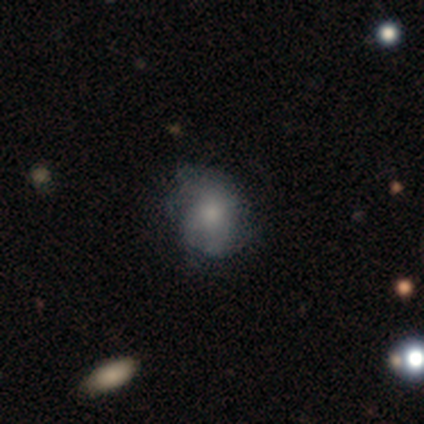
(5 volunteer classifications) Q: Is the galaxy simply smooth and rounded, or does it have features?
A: smooth — 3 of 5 (60%).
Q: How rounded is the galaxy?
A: round — 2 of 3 (67%).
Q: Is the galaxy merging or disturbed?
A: none — 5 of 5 (100%).